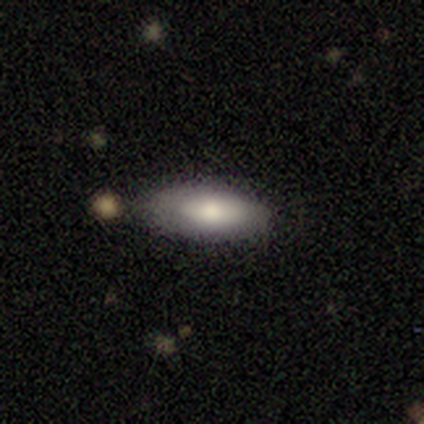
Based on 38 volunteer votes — smooth 84%, featured or disk 16%, star or artifact 0%. Down the decision tree: how rounded — in between (66%); merging — none (74%).